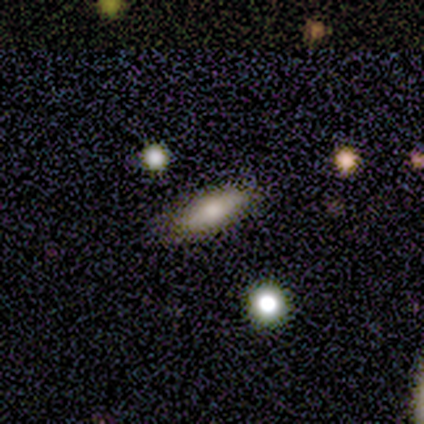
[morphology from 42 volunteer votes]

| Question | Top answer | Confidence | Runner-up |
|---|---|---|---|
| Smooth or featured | smooth | 69% | featured or disk (24%) |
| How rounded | cigar-shaped | 52% | in between (48%) |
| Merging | none | 82% | minor disturbance (13%) |